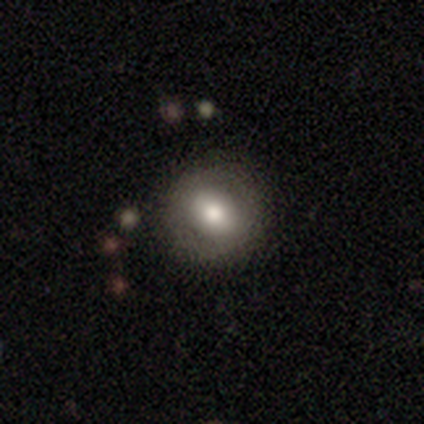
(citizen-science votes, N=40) A smooth galaxy with no disk features (57%) that is round (96%).

Vote fractions:
- Smooth or featured? smooth: 57% / featured or disk: 30% / star or artifact: 12%
- How rounded? round: 96% / in between: 4% / cigar-shaped: 0%
- Merging? none: 80% / minor disturbance: 17% / merger: 3% / major disturbance: 0%